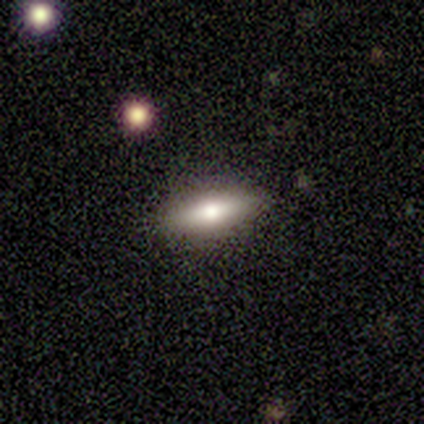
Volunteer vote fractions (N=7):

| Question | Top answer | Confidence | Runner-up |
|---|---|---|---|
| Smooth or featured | smooth | 71% | featured or disk (14%) |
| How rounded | cigar-shaped | 60% | in between (40%) |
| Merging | none | 83% | minor disturbance (17%) |